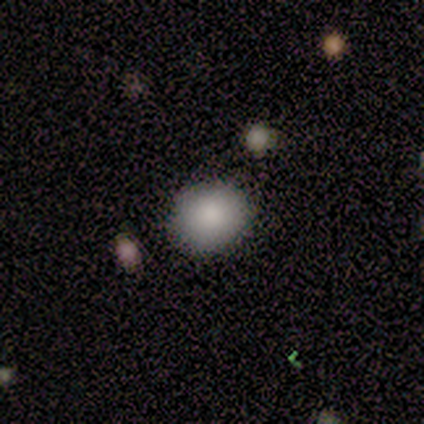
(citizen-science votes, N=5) Smooth or featured: smooth — 100%
How rounded: round — 60% (in between — 40%)
Merging: none — 100%